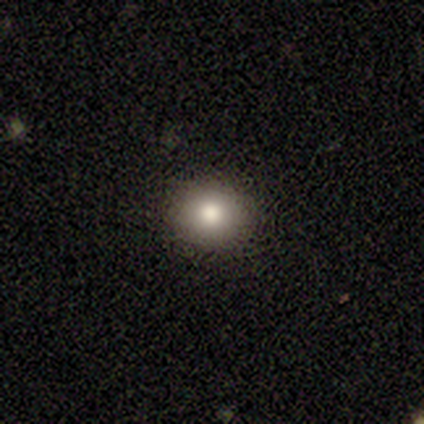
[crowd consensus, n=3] smooth-or-featured: featured or disk: 67% | smooth: 33% | star or artifact: 0%
  disk-edge-on: no: 100% | yes: 0%
    bar: no: 100% | strong: 0% | weak: 0%
    has-spiral-arms: no: 100% | yes: 0%
    bulge-size: large: 50% (tied) | moderate: 50% (tied) | dominant: 0% | small: 0% | none: 0%
  merging: none: 100% | minor disturbance: 0% | major disturbance: 0% | merger: 0%